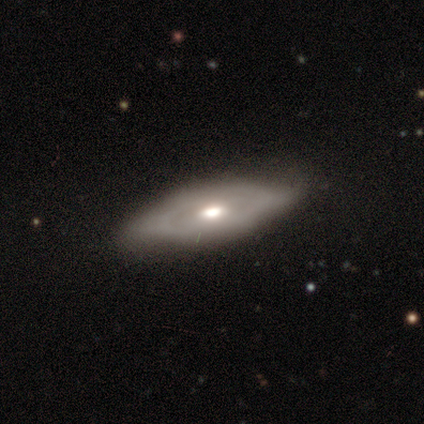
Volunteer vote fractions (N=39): Smooth or featured?
  - featured or disk: 64% *
  - smooth: 33%
  - star or artifact: 3%
Edge-on disk?
  - no: 80% *
  - yes: 20%
Bar?
  - no: 80% *
  - weak: 15%
  - strong: 5%
Spiral arms?
  - no: 55% *
  - yes: 45%
Bulge size?
  - moderate: 85% *
  - large: 10%
  - small: 5%
  - dominant: 0%
  - none: 0%
Merging?
  - none: 79% *
  - minor disturbance: 16%
  - major disturbance: 3%
  - merger: 3%